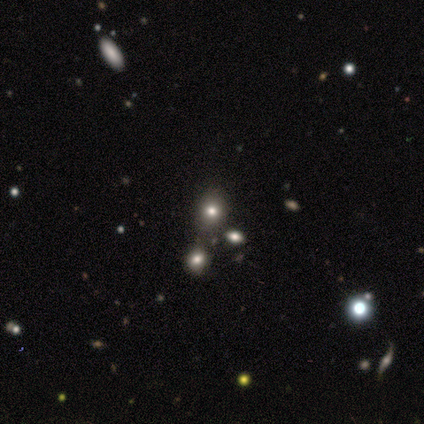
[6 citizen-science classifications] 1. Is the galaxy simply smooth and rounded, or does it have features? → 67% smooth, 17% featured or disk, 17% star or artifact.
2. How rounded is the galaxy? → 50% round (tied), 50% in between (tied), 0% cigar-shaped.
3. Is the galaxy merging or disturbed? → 80% none, 20% minor disturbance, 0% major disturbance, 0% merger.